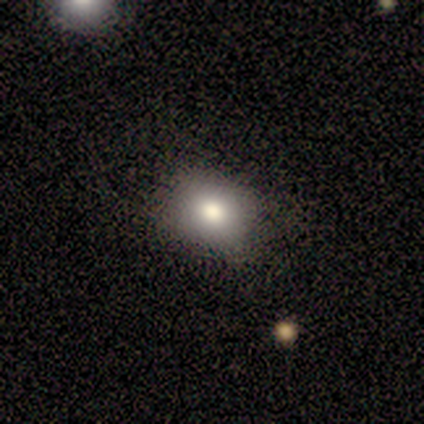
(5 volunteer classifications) Smooth or featured? 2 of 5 (40%, tied with featured or disk) said smooth. How rounded? 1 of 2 (50%, tied with in between) said round. Merging? 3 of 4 (75%) said none.